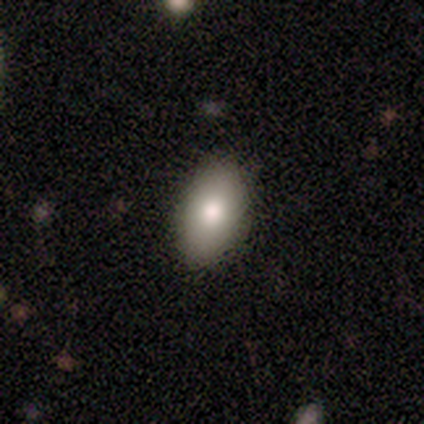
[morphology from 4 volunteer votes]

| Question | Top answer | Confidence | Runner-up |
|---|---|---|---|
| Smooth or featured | smooth | 75% | star or artifact (25%) |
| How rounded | in between | 100% | — |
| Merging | none | 67% | minor disturbance (33%) |